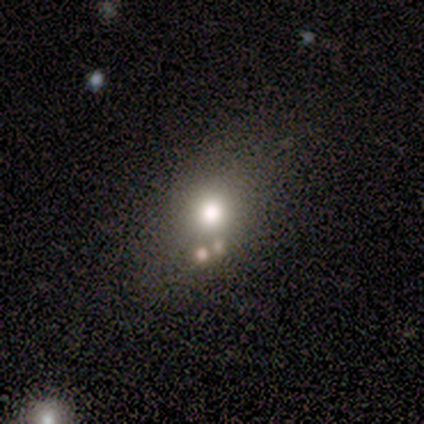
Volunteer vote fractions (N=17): A smooth galaxy with no disk features (71%) that is round (58%). Merging: none (77%).